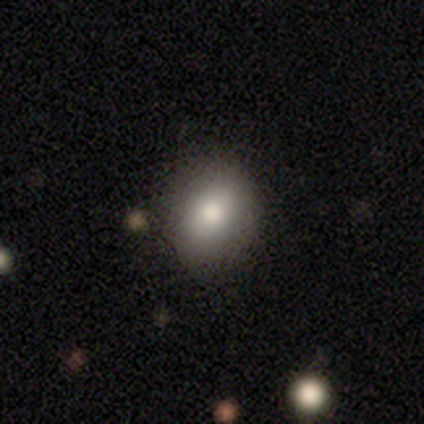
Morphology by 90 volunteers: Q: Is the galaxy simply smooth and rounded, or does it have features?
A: smooth — 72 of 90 (80%).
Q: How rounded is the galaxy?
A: round — 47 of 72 (65%).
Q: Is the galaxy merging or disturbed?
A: none — 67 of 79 (85%).